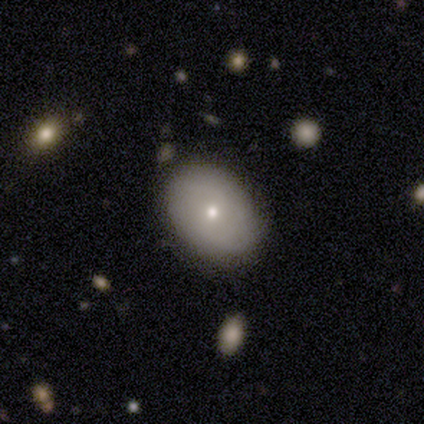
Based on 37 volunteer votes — smooth-or-featured: smooth: 59% | featured or disk: 35% | star or artifact: 5%
  how-rounded: in between: 64% | round: 36% | cigar-shaped: 0%
  merging: none: 80% | minor disturbance: 14% | major disturbance: 6% | merger: 0%